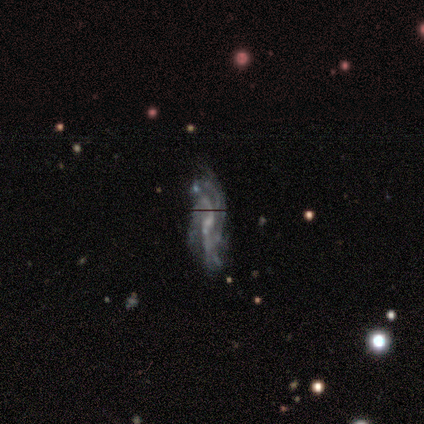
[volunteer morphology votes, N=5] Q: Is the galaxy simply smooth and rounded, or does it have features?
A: featured or disk — 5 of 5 (100%).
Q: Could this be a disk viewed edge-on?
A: no — 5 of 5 (100%).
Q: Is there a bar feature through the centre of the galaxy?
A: weak — 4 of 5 (80%).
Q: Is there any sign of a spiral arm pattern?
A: yes — 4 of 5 (80%).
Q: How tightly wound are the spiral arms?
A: tight — 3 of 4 (75%).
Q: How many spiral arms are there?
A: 3 — 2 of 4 (50%).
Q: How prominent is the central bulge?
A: small — 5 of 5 (100%).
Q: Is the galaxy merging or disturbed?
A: none — 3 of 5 (60%).